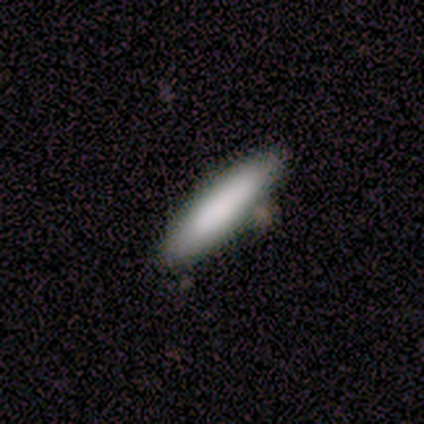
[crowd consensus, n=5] smooth_or_featured: smooth (p=0.80) [alt: star or artifact p=0.20]
how_rounded: cigar-shaped (p=1.00)
merging: none (p=1.00)